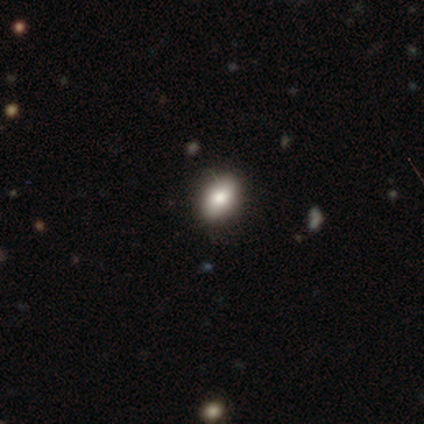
smooth 71%, featured or disk 14%, star or artifact 14%. Down the decision tree: how rounded — in between (100%); merging — none (67%).